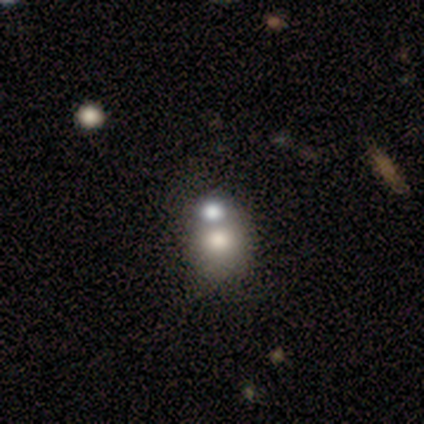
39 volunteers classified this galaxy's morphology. type=smooth (69%); roundness=round (63%); merging=merger (42%).